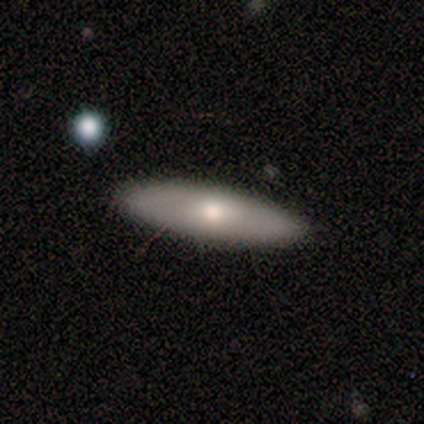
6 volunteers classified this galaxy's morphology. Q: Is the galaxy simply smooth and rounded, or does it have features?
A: smooth — 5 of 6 (83%).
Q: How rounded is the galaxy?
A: cigar-shaped — 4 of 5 (80%).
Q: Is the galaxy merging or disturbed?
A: none — 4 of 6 (67%).